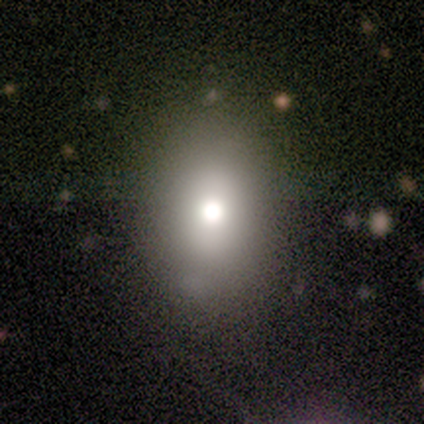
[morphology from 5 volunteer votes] smooth 80%, star or artifact 20%, featured or disk 0%. Down the decision tree: how rounded — round (50%, tied with in between); merging — none (75%).